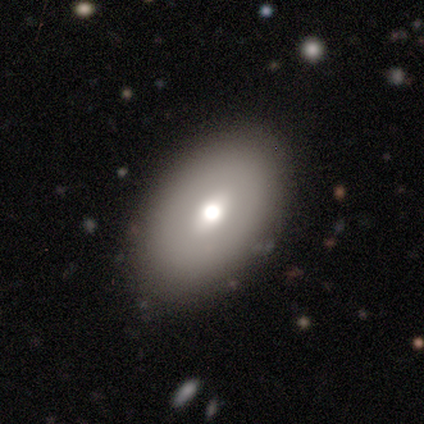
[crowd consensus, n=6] Smooth or featured?
  - smooth: 83% *
  - featured or disk: 17%
  - star or artifact: 0%
How rounded?
  - in between: 100% *
  - round: 0%
  - cigar-shaped: 0%
Merging?
  - none: 100% *
  - minor disturbance: 0%
  - major disturbance: 0%
  - merger: 0%